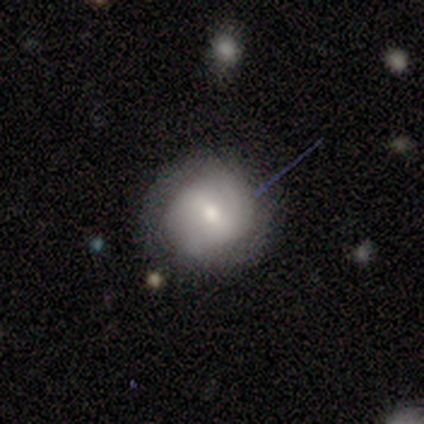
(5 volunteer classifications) Smooth or featured? smooth (60%)
How rounded? round (67%)
Merging? none (40%, tied with major disturbance)